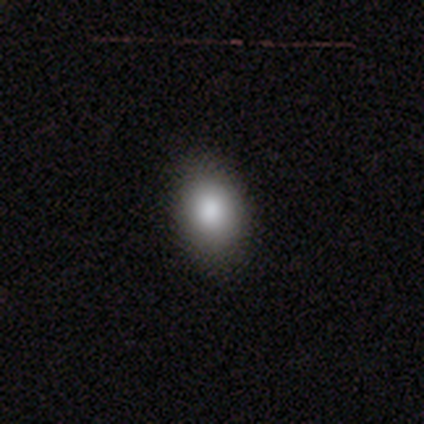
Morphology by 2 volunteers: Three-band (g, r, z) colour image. It shows a smooth galaxy with no disk features (100%) that is round (50%, tied with in between). Merging: none (50%, tied with minor disturbance).